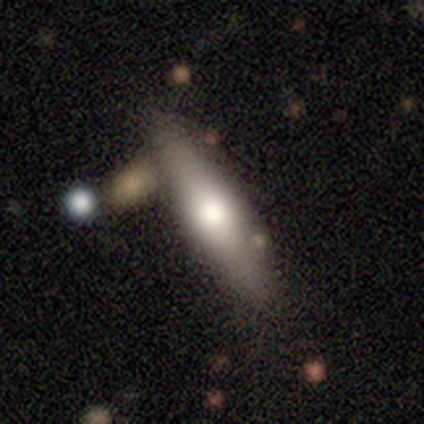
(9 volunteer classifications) featured or disk 67%, smooth 33%, star or artifact 0%. Down the decision tree: edge-on disk — yes (100%); edge-on bulge — rounded (100%); merging — none (89%).